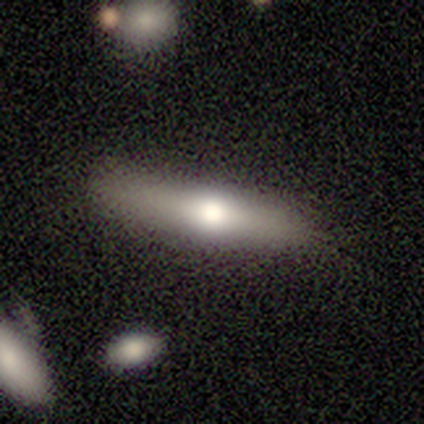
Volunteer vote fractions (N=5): Volunteers were most divided on "smooth or featured": featured or disk: 60%, smooth: 40%, star or artifact: 0%. More confident: edge-on disk — yes (100%); edge-on bulge — rounded (100%); merging — none (100%).